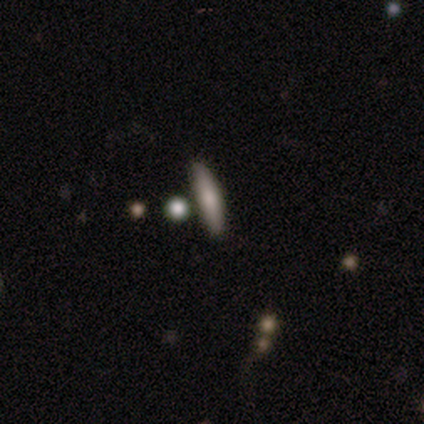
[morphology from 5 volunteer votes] smooth 60%, featured or disk 40%, star or artifact 0%. Down the decision tree: how rounded — cigar-shaped (100%); merging — none (100%).